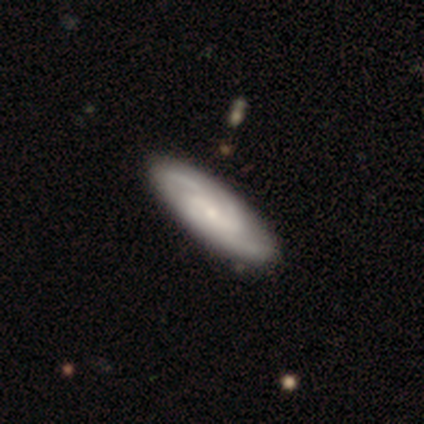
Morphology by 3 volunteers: Smooth or featured?
  - featured or disk: 67% *
  - smooth: 33%
  - star or artifact: 0%
Edge-on disk?
  - no: 100% *
  - yes: 0%
Bar?
  - no: 100% *
  - strong: 0%
  - weak: 0%
Spiral arms?
  - yes: 100% *
  - no: 0%
Spiral winding?
  - tight: 50% * (tied)
  - loose: 50% * (tied)
  - medium: 0%
Spiral arm count?
  - 3: 50% * (tied)
  - 4: 50% * (tied)
  - 1: 0%
  - 2: 0%
  - more than 4: 0%
  - can't tell: 0%
Bulge size?
  - small: 100% *
  - dominant: 0%
  - large: 0%
  - moderate: 0%
  - none: 0%
Merging?
  - none: 67% *
  - minor disturbance: 33%
  - major disturbance: 0%
  - merger: 0%